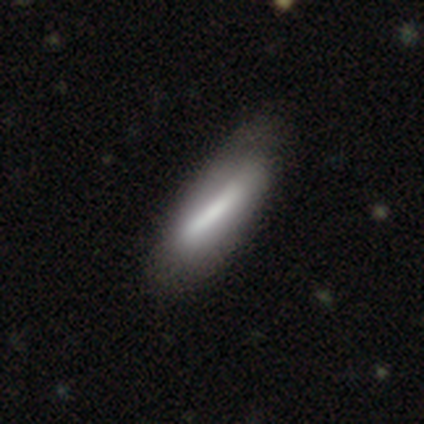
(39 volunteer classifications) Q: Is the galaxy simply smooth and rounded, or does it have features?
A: smooth — 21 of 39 (54%).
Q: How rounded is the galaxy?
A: cigar-shaped — 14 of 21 (67%).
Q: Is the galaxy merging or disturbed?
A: none — 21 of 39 (54%).